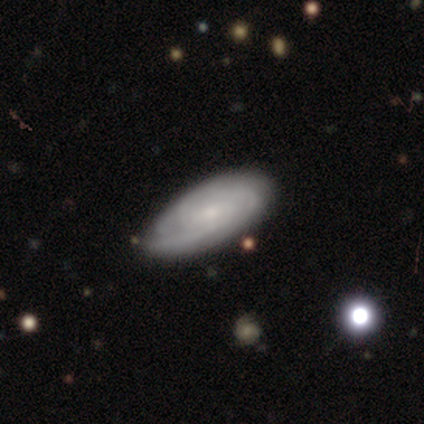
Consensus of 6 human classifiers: A smooth galaxy with no disk features (50%, tied with featured or disk) that is in between round and cigar-shaped (100%). Merging: none (67%).